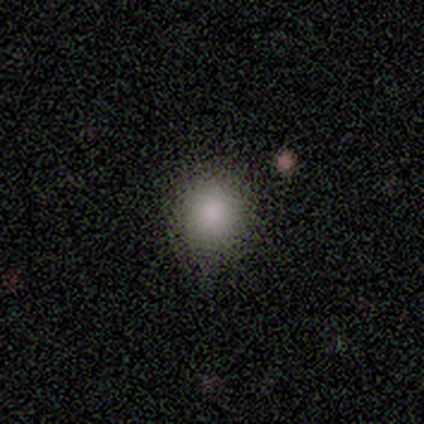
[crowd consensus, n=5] A smooth galaxy with no disk features (100%) that is round (60%). Merging: none (80%).